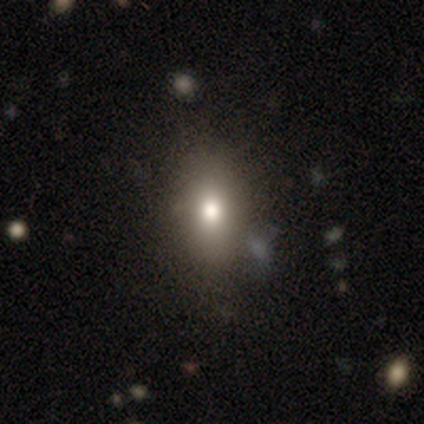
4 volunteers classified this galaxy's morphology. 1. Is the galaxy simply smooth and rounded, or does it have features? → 75% smooth, 25% star or artifact, 0% featured or disk.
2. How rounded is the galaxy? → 100% in between, 0% round, 0% cigar-shaped.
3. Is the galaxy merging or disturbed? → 100% none, 0% minor disturbance, 0% major disturbance, 0% merger.